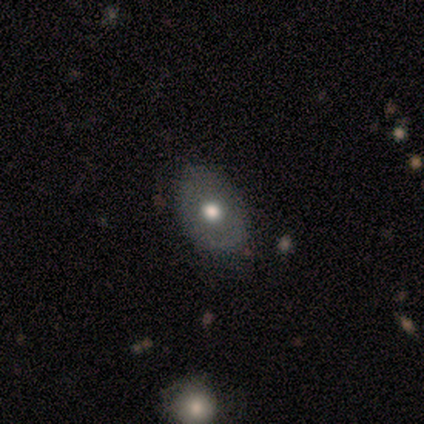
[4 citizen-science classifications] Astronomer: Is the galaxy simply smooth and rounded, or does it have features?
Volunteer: smooth — 75%.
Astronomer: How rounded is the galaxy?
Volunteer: in between — 67%.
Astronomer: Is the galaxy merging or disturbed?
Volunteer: none — 33%, tied with minor disturbance and major disturbance at 33%.